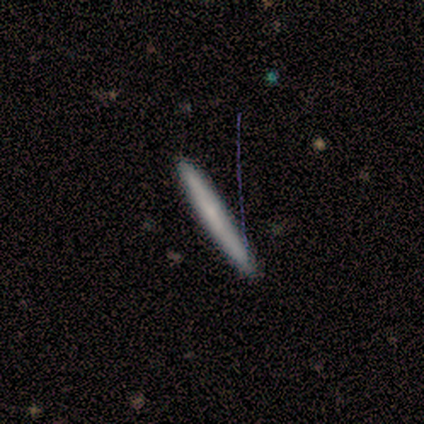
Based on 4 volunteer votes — smooth_or_featured: smooth (p=0.50) [tied with: featured or disk p=0.50]
how_rounded: cigar-shaped (p=1.00)
merging: none (p=0.50) [alt: minor disturbance p=0.25]